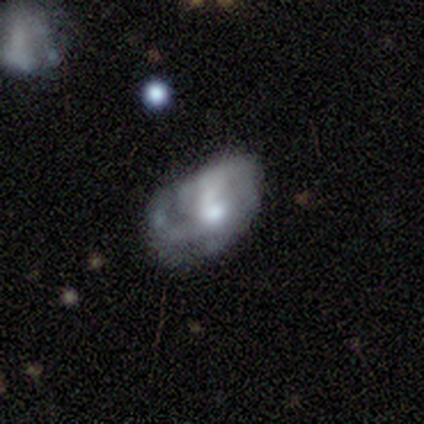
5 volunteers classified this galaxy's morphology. smooth-or-featured: featured or disk: 80% | smooth: 20% | star or artifact: 0%
  disk-edge-on: no: 100% | yes: 0%
    bar: no: 75% | weak: 25% | strong: 0%
    has-spiral-arms: yes: 100% | no: 0%
      spiral-winding: medium: 75% | tight: 25% | loose: 0%
      spiral-arm-count: can't tell: 75% | 2: 25% | 1: 0% | 3: 0% | 4: 0% | more than 4: 0%
    bulge-size: moderate: 75% | small: 25% | dominant: 0% | large: 0% | none: 0%
  merging: none: 80% | minor disturbance: 20% | major disturbance: 0% | merger: 0%